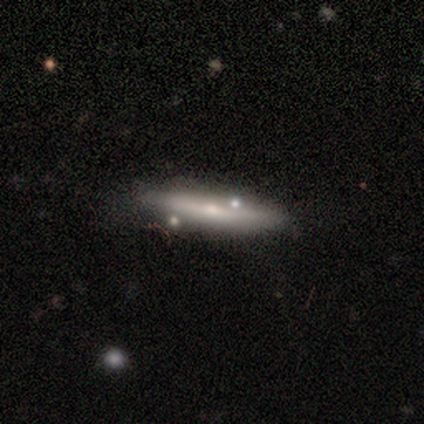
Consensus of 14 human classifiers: featured or disk 50%, smooth 43%, star or artifact 7%. Down the decision tree: edge-on disk — yes (86%); edge-on bulge — rounded (67%); merging — none (62%).